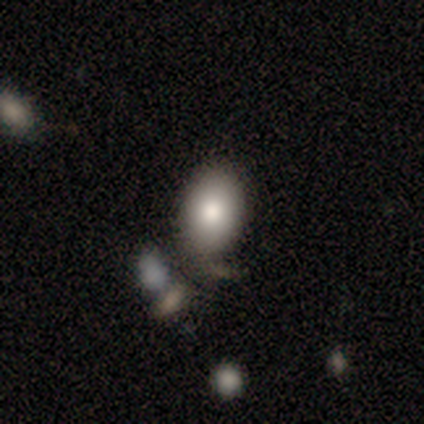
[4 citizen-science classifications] smooth-or-featured: smooth: 100% | featured or disk: 0% | star or artifact: 0%
  how-rounded: in between: 100% | round: 0% | cigar-shaped: 0%
  merging: none: 50% (tied) | minor disturbance: 50% (tied) | major disturbance: 0% | merger: 0%